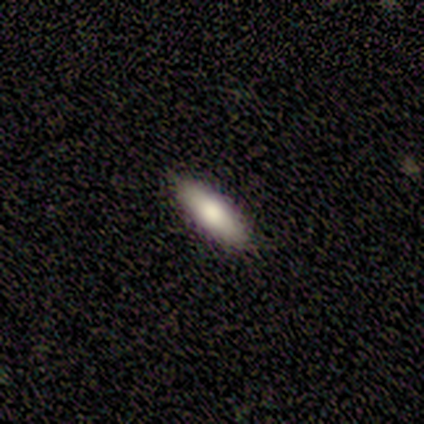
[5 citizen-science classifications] smooth 100%, featured or disk 0%, star or artifact 0%. Down the decision tree: how rounded — cigar-shaped (60%); merging — none (100%).